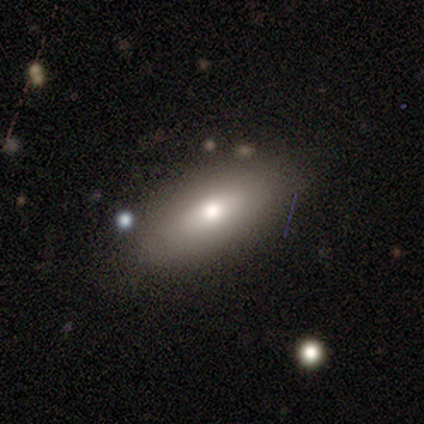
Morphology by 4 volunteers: Overall: smooth (100%). How rounded: in between (75%). Merging: none (75%).